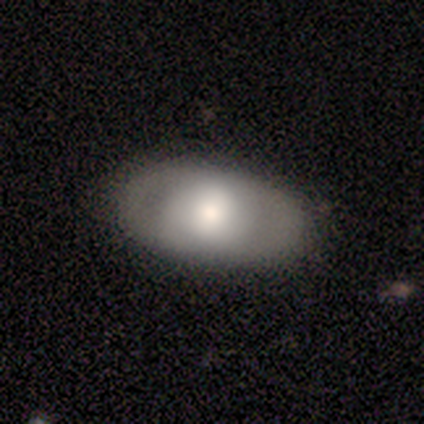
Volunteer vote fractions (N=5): A featured or disk galaxy (60%) with no bar (100%), no spiral arms (100%) and a dominant central bulge (33%, tied with moderate and small). Merging: none (80%).